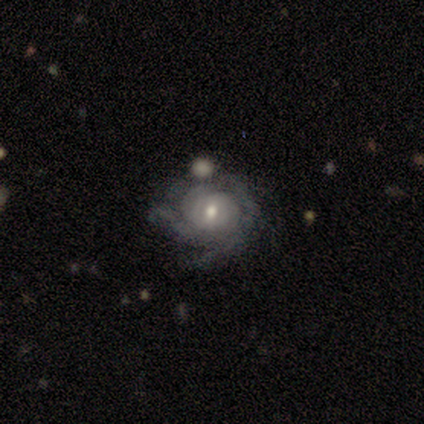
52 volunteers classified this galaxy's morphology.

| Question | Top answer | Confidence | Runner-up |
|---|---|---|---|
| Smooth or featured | featured or disk | 85% | smooth (12%) |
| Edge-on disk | no | 95% | yes (5%) |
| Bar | no | 55% | weak (38%) |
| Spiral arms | yes | 86% | no (14%) |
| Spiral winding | tight | 58% | medium (36%) |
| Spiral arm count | can't tell | 42% | 3 (28%) |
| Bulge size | moderate | 71% | small (24%) |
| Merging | none | 54% | minor disturbance (30%) |